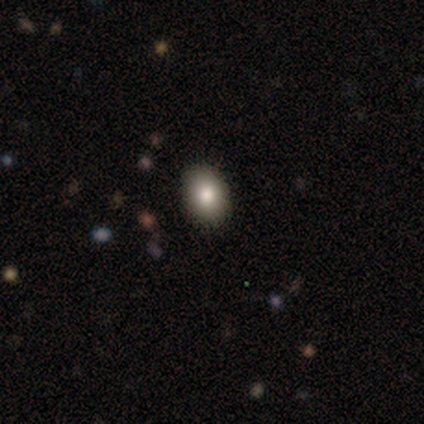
smooth-or-featured: smooth: 67% | featured or disk: 17% | star or artifact: 17%
  how-rounded: in between: 100% | round: 0% | cigar-shaped: 0%
  merging: none: 100% | minor disturbance: 0% | major disturbance: 0% | merger: 0%